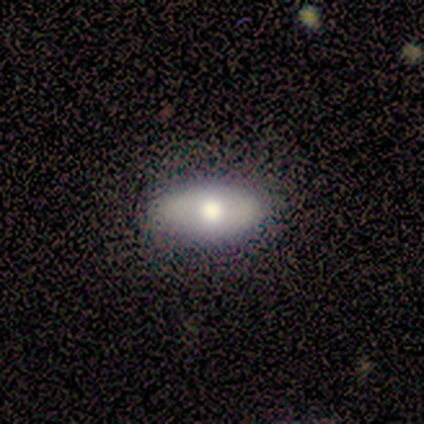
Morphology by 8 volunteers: Q: Smooth or featured?
A: smooth (75%); runner-up: featured or disk (25%)
Q: How rounded?
A: in between (100%)
Q: Merging?
A: none (100%)